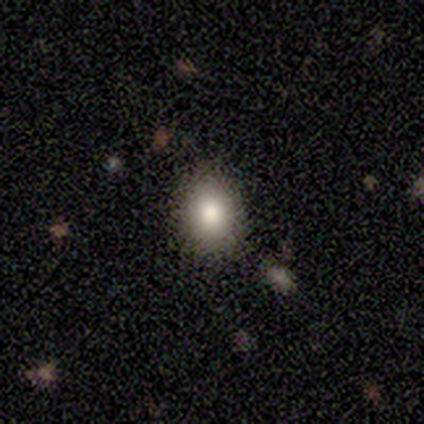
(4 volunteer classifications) Smooth or featured?
  - smooth: 75% *
  - featured or disk: 25%
  - star or artifact: 0%
How rounded?
  - in between: 67% *
  - round: 33%
  - cigar-shaped: 0%
Merging?
  - none: 100% *
  - minor disturbance: 0%
  - major disturbance: 0%
  - merger: 0%